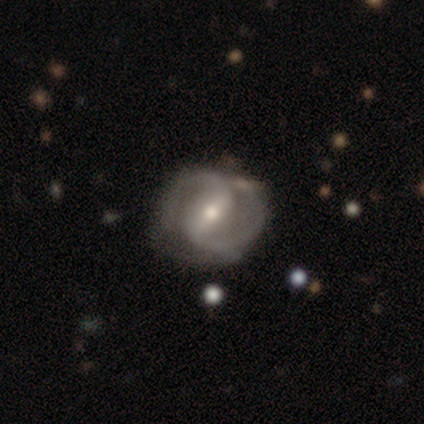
Smooth or featured? 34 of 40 (85%) said featured or disk. Edge-on disk? 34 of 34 (100%) said no. Bar? 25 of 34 (74%) said strong. Spiral arms? 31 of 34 (91%) said yes. Spiral winding? 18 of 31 (58%) said medium. Spiral arm count? 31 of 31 (100%) said 2. Bulge size? 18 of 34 (53%) said small. Merging? 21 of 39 (54%) said none.